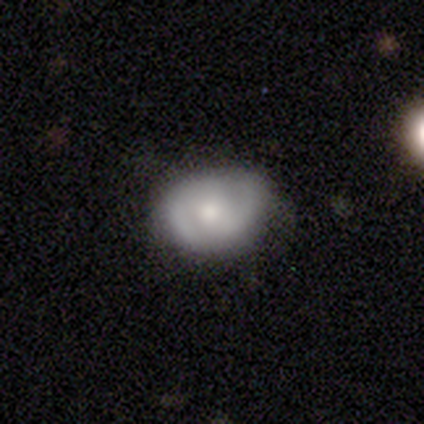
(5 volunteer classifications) Smooth or featured? featured or disk (60%)
Edge-on disk? no (100%)
Bar? no (100%)
Spiral arms? yes (67%)
Spiral winding? medium (50%, tied with loose)
Spiral arm count? 2 (100%)
Bulge size? small (67%)
Merging? none (100%)